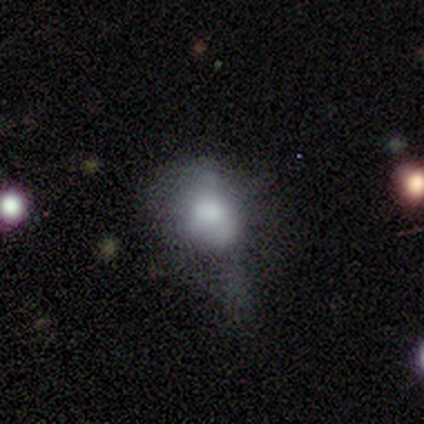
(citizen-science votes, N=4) A smooth galaxy with no disk features (75%) that is round (67%). Merging: major disturbance (100%).